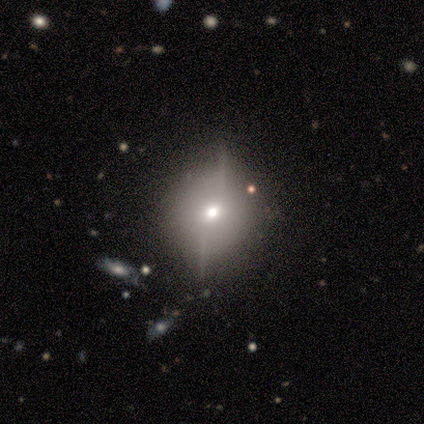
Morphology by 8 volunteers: A featured or disk galaxy (88%) viewed edge-on (57%) with a rounded central bulge (100%). Merging: none (57%).